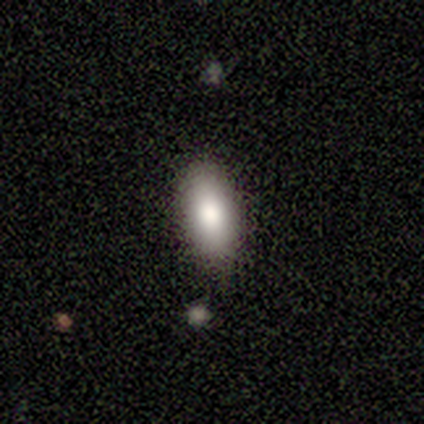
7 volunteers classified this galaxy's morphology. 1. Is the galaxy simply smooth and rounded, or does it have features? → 71% smooth, 14% featured or disk, 14% star or artifact.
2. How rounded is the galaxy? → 80% in between, 20% round, 0% cigar-shaped.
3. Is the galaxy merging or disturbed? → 83% none, 17% merger, 0% minor disturbance, 0% major disturbance.